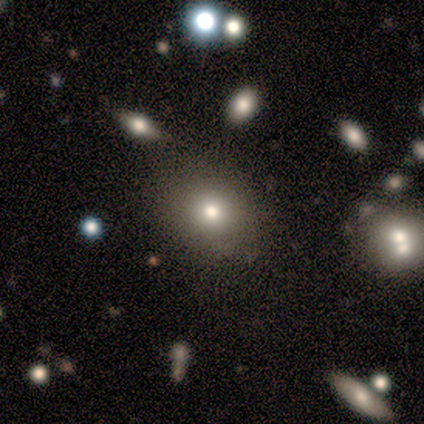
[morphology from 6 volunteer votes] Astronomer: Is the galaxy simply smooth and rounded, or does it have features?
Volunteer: smooth — 50% (runner-up: star or artifact, 33%).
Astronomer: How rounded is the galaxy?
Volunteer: in between — 67%.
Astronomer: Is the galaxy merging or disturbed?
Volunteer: none — 100%.